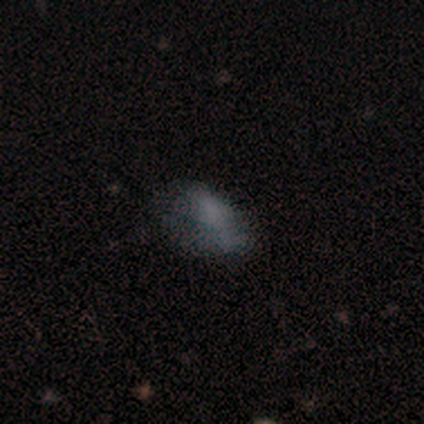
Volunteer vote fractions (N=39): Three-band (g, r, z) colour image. It shows a smooth galaxy with no disk features (59%) that is in between round and cigar-shaped (96%). Merging: none (56%).